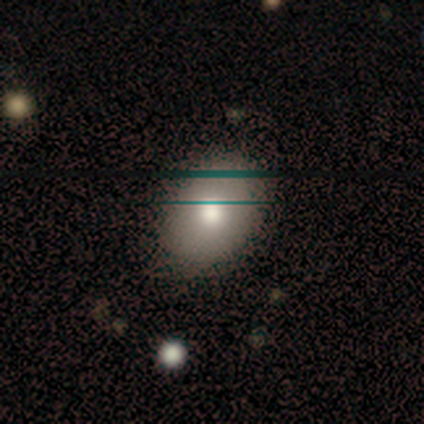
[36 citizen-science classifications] Q: Smooth or featured?
A: smooth (75%); runner-up: featured or disk (17%)
Q: How rounded?
A: in between (81%); runner-up: round (19%)
Q: Merging?
A: none (79%); runner-up: minor disturbance (18%)